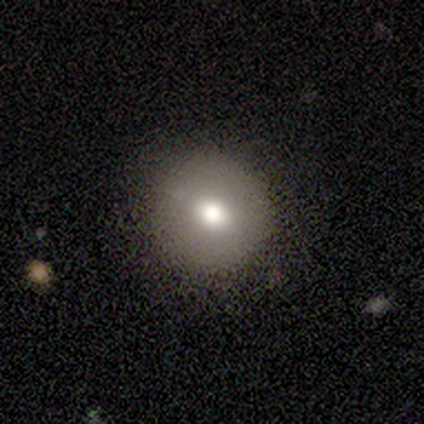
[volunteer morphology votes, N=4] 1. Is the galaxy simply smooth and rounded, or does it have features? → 75% smooth, 25% featured or disk, 0% star or artifact.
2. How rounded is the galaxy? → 100% round, 0% in between, 0% cigar-shaped.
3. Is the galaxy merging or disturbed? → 100% none, 0% minor disturbance, 0% major disturbance, 0% merger.